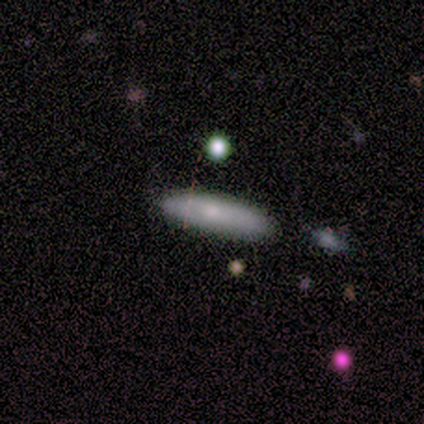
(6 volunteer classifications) smooth_or_featured: smooth (p=0.83) [alt: featured or disk p=0.17]
how_rounded: cigar-shaped (p=1.00)
merging: none (p=1.00)